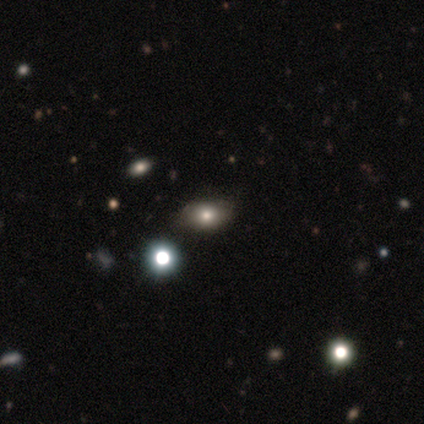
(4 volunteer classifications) A smooth galaxy with no disk features (75%) that is in between round and cigar-shaped (67%). Merging: none (100%).